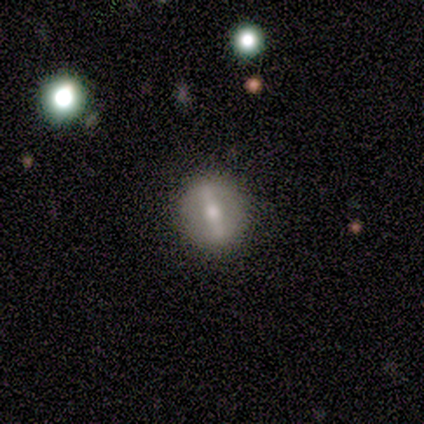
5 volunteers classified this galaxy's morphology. A featured or disk galaxy (60%) with a strong bar (100%), no spiral arms (100%) and a moderate central bulge (100%). Merging: none (100%).